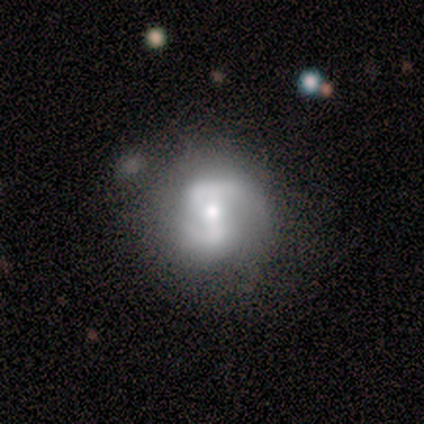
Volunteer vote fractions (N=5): featured or disk 60%, smooth 20%, star or artifact 20%. Down the decision tree: edge-on disk — no (100%); bar — weak (67%); spiral arms — yes (67%); spiral arm count — 2 (100%); spiral winding — medium (100%); bulge size — moderate (67%); merging — none (75%).